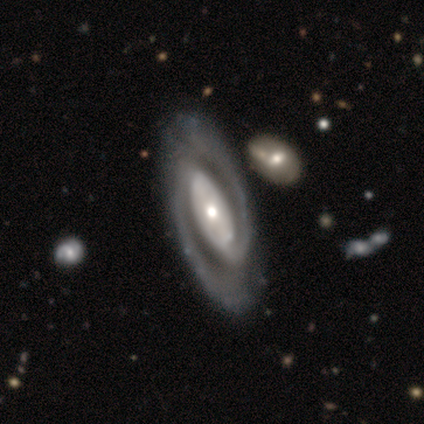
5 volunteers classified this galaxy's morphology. Smooth or featured? featured or disk (100%)
Edge-on disk? no (100%)
Bar? no (60%)
Spiral arms? yes (100%)
Spiral winding? tight (40%, tied with medium)
Spiral arm count? 2 (60%)
Bulge size? small (60%)
Merging? none (80%)